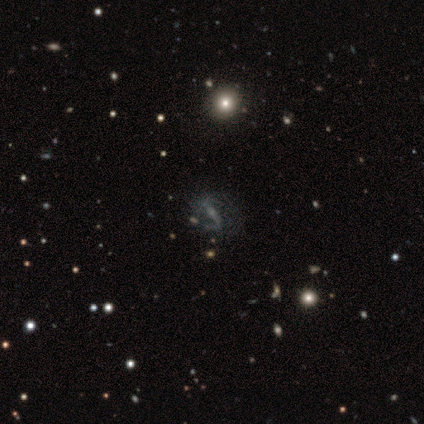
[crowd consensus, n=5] This appears to be a featured or disk galaxy (100%) with a strong bar (40%, tied with no), 2 (60%) loose (60%) spiral arms (100%) and no central bulge (60%). Merging: none (80%).